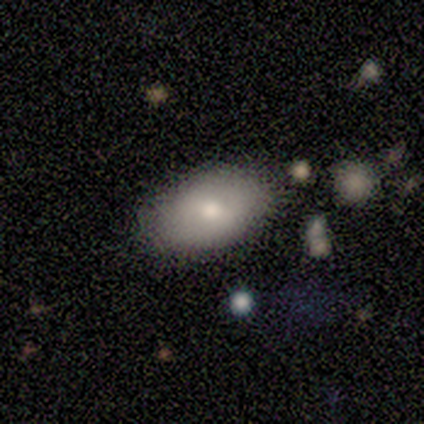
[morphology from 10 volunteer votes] type=smooth (80%); roundness=in between (88%); merging=none (89%).